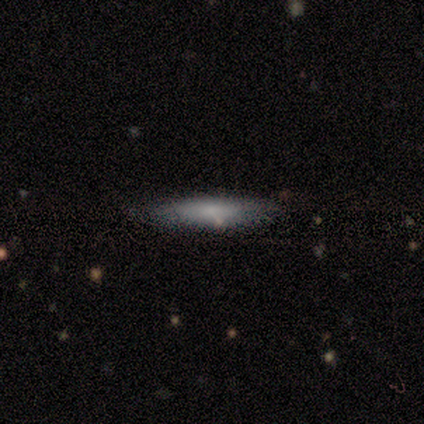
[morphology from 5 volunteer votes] Smooth or featured? smooth (60%)
How rounded? cigar-shaped (67%)
Merging? none (60%)